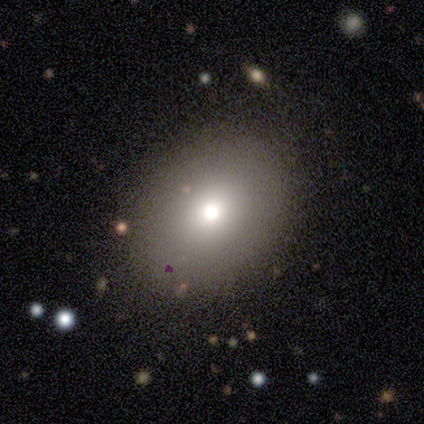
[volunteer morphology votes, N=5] smooth_or_featured: smooth (p=0.80) [alt: featured or disk p=0.20]
how_rounded: round (p=0.75) [alt: in between p=0.25]
merging: none (p=1.00)